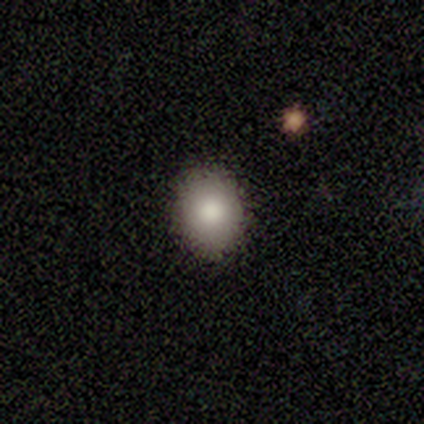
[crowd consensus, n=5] A smooth galaxy with no disk features (60%) that is round (67%). Merging: none (100%).